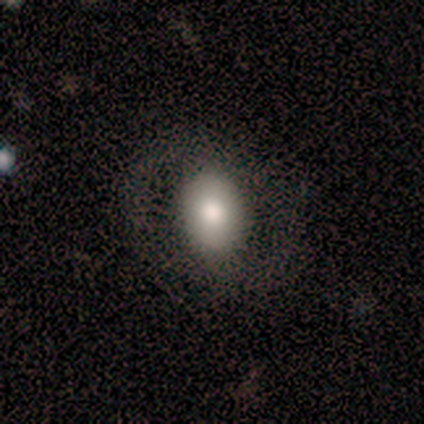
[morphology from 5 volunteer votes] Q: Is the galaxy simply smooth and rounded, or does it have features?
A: featured or disk — 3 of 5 (60%).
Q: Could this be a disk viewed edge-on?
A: no — 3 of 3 (100%).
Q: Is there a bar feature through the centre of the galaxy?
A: strong — 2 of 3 (67%).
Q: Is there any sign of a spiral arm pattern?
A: yes — 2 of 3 (67%).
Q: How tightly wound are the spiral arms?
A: medium — 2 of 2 (100%).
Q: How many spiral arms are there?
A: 2 — 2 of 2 (100%).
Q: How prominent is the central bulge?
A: moderate — 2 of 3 (67%).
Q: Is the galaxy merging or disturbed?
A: none — 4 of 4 (100%).